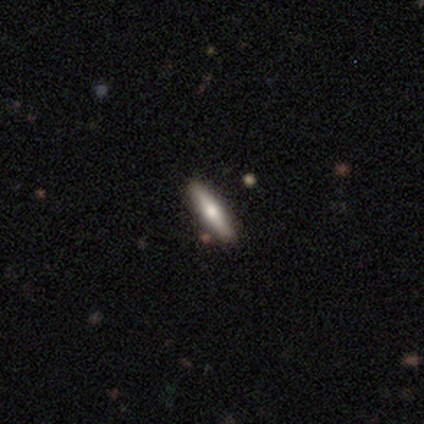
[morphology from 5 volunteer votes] Overall: smooth (60%; featured or disk 40%). How rounded: cigar-shaped (100%). Merging: none (100%).